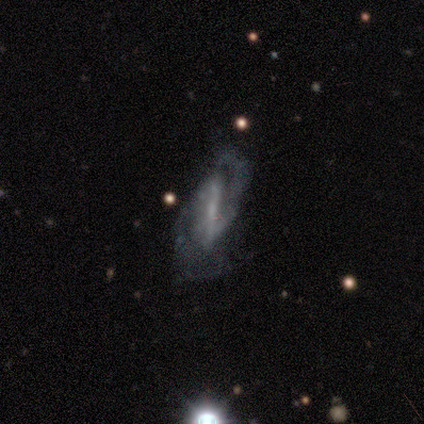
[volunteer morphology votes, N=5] type=featured or disk (100%); edge-on=no (100%); bar=strong (80%); spiral arms=yes (80%); winding=medium (50%); arm count=2 (100%); bulge=small (60%); merging=none (80%).